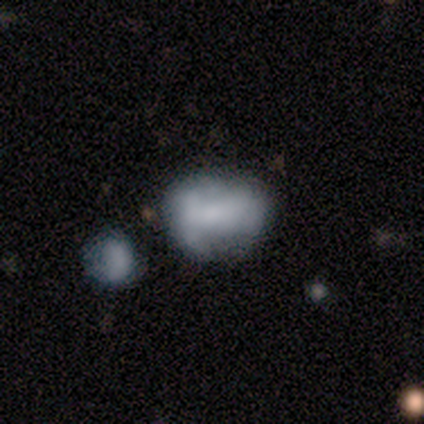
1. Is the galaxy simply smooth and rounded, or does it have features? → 40% smooth (tied), 40% featured or disk (tied), 20% star or artifact.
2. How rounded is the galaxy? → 50% round (tied), 50% in between (tied), 0% cigar-shaped.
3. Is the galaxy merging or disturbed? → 50% none (tied), 50% minor disturbance (tied), 0% major disturbance, 0% merger.